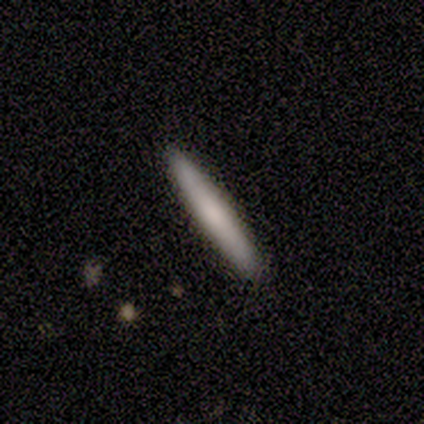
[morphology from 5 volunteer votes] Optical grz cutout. It shows a smooth galaxy with no disk features (100%) that is cigar-shaped (100%). Merging: none (80%).